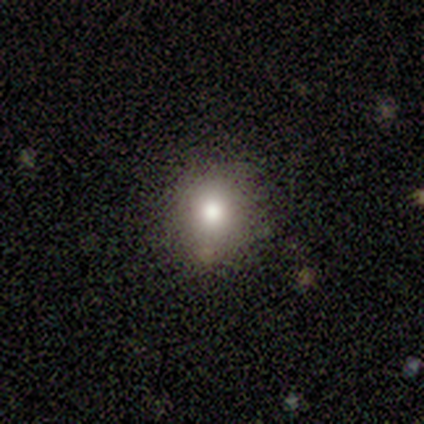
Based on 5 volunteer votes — Overall: smooth (80%). How rounded: round (50%, tied with in between). Merging: none (75%).